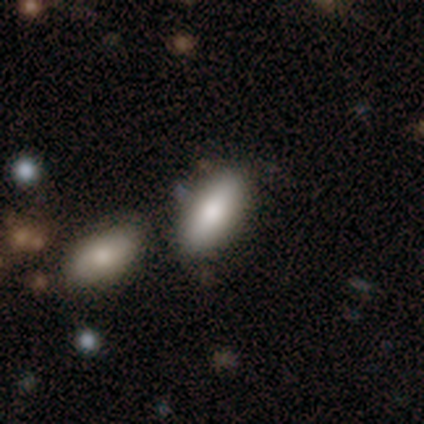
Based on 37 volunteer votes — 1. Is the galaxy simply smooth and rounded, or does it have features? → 89% smooth, 5% featured or disk, 5% star or artifact.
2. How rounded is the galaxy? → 79% in between, 21% cigar-shaped, 0% round.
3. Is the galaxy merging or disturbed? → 86% none, 6% minor disturbance, 6% merger, 3% major disturbance.